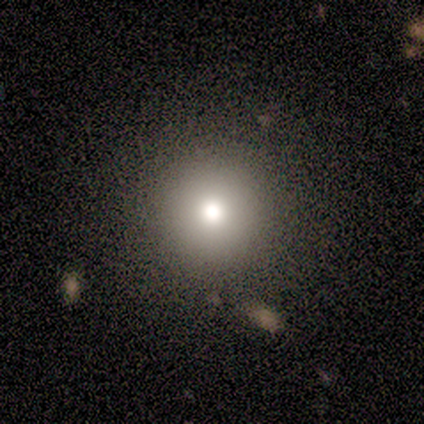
smooth-or-featured: smooth: 60% | featured or disk: 20% | star or artifact: 20%
  how-rounded: round: 100% | in between: 0% | cigar-shaped: 0%
  merging: none: 75% | major disturbance: 25% | minor disturbance: 0% | merger: 0%